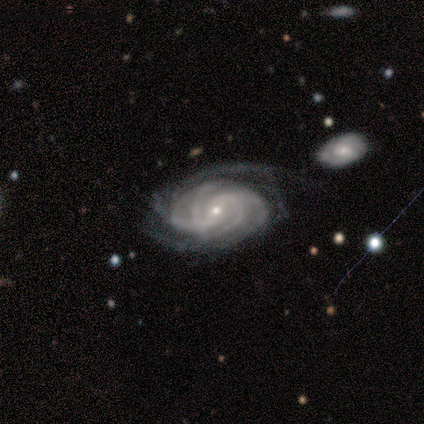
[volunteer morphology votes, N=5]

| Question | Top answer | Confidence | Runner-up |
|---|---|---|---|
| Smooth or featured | featured or disk | 100% | — |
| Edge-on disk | no | 80% | yes (20%) |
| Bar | weak | 75% | no (25%) |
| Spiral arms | yes | 100% | — |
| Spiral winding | tight | 100% | — |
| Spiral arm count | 4 | 50% | 3 (25%) |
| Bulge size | small | 100% | — |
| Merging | major disturbance | 60% | none (40%) |